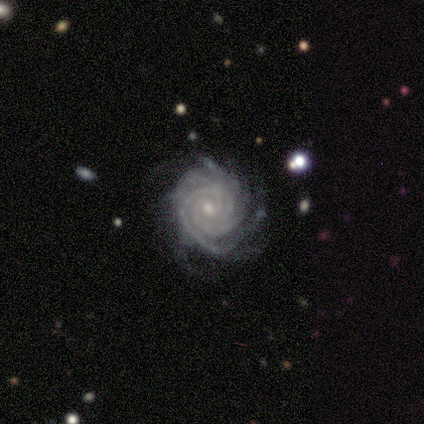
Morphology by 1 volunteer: This is clearly a featured or disk galaxy (100%). It is clearly not viewed edge-on (100%). Bar: clearly no (100%). Spiral arm pattern: clearly yes (100%). Spiral arm count: clearly 3 (100%). Spiral winding: clearly medium (100%). Central bulge: clearly moderate (100%). Merging: clearly none (100%).